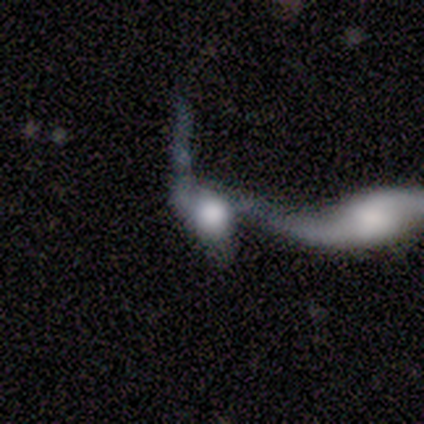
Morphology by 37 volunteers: Volunteers were most divided on "smooth or featured": featured or disk: 49%, smooth: 43%, star or artifact: 8%. Remaining: edge-on disk — no (94%); bar — no (82%); merging — merger (74%); spiral arms — no (59%); bulge size — large (41%).